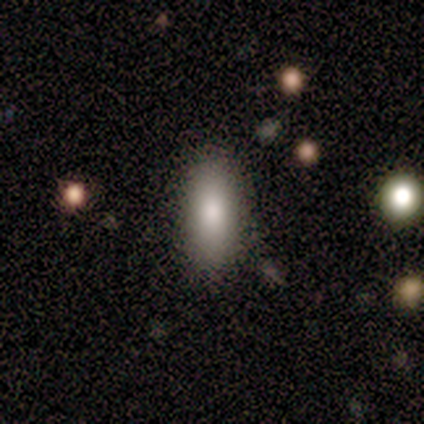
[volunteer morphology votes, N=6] Volunteers were most divided on "how rounded" (2-way tie): in between: 50%, cigar-shaped: 50%, round: 0%. More confident: smooth or featured — smooth (100%); merging — none (100%).